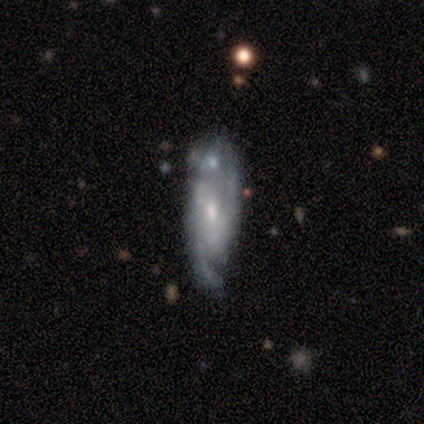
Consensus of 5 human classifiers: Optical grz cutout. It shows a featured or disk galaxy (100%) with no bar (60%), 2 (80%) medium (60%) spiral arms (100%) and a small central bulge (60%). Merging: none (60%).